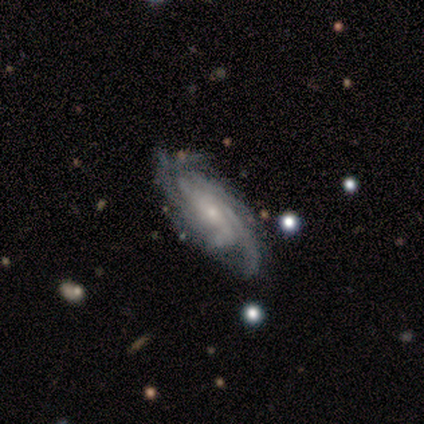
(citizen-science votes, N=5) Q: Smooth or featured?
A: featured or disk (100%)
Q: Edge-on disk?
A: no (100%)
Q: Bar?
A: weak (60%); runner-up: no (40%)
Q: Spiral arms?
A: yes (100%)
Q: Spiral winding?
A: medium (80%); runner-up: tight (20%)
Q: Spiral arm count?
A: 4 (60%); runner-up: 3 (20%)
Q: Bulge size?
A: small (60%); runner-up: moderate (40%)
Q: Merging?
A: none (60%); runner-up: minor disturbance (40%)